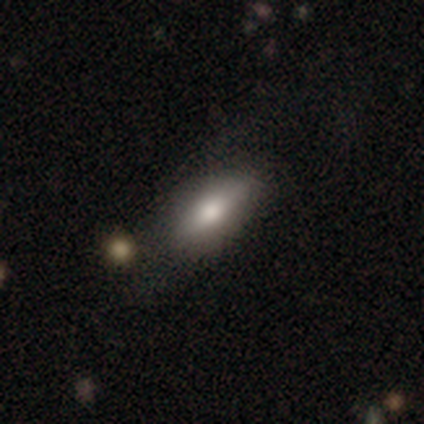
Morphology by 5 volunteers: smooth_or_featured: smooth (p=0.80) [alt: star or artifact p=0.20]
how_rounded: in between (p=0.50) [tied with: cigar-shaped p=0.50]
merging: none (p=0.75) [alt: minor disturbance p=0.25]